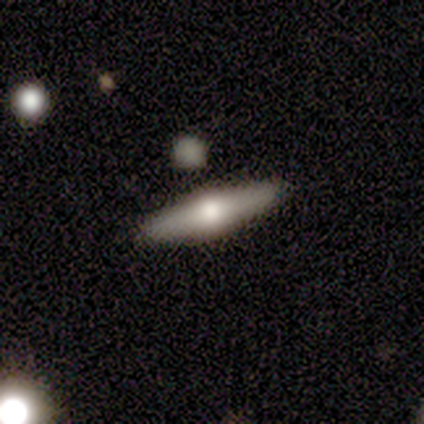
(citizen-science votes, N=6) A smooth galaxy with no disk features (50%, tied with featured or disk) that is in between round and cigar-shaped (67%). Merging: none (83%).